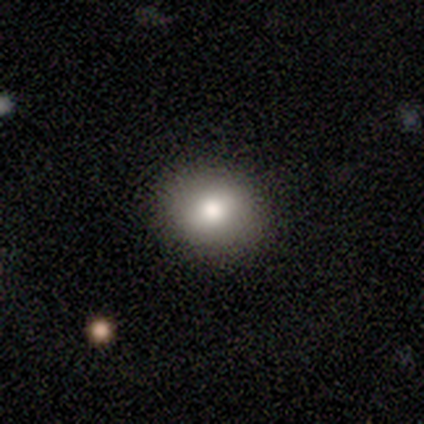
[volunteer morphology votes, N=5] This is likely a smooth galaxy (60%). How rounded: clearly round (100%). Merging: clearly none (100%).